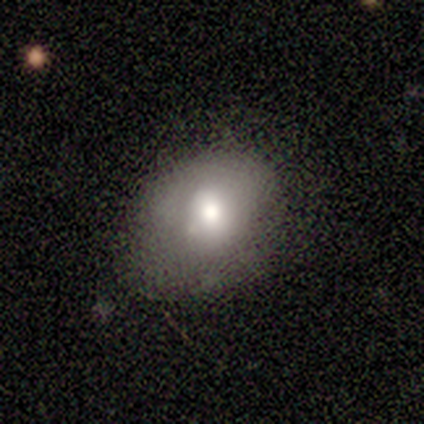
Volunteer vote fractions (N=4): Q: Smooth or featured?
A: smooth (100%)
Q: How rounded?
A: in between (75%); runner-up: round (25%)
Q: Merging?
A: none (75%); runner-up: major disturbance (25%)